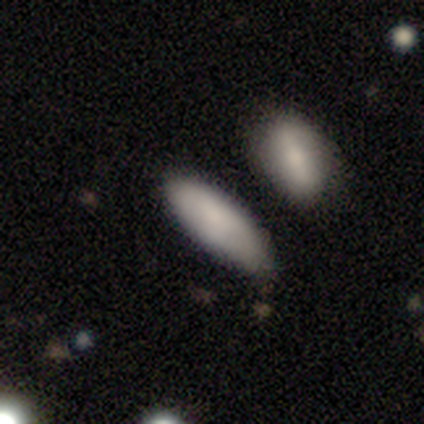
Volunteers were most divided on "merging" (2-way tie): none: 50%, minor disturbance: 50%, major disturbance: 0%, merger: 0%. More confident: smooth or featured — smooth (75%); how rounded — in between (67%).